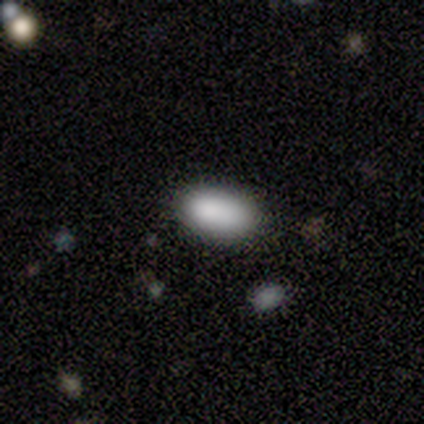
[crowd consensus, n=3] smooth_or_featured: smooth (p=1.00)
how_rounded: in between (p=1.00)
merging: none (p=0.67) [alt: minor disturbance p=0.33]